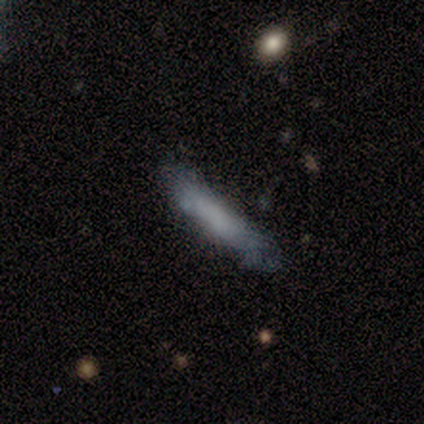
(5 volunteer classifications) A smooth galaxy with no disk features (60%) that is cigar-shaped (100%). Merging: none (60%).